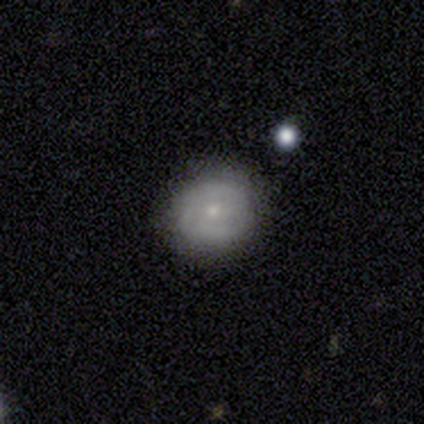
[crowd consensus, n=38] smooth_or_featured: smooth (p=0.63) [alt: featured or disk p=0.32]
how_rounded: round (p=0.83) [alt: in between p=0.17]
merging: none (p=0.78) [alt: minor disturbance p=0.17]